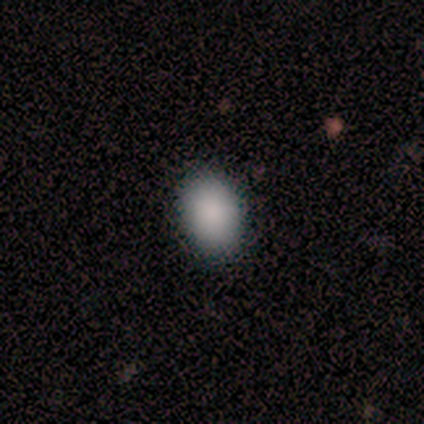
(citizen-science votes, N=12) Overall: smooth (100%). How rounded: in between (67%; round 33%). Merging: none (100%).